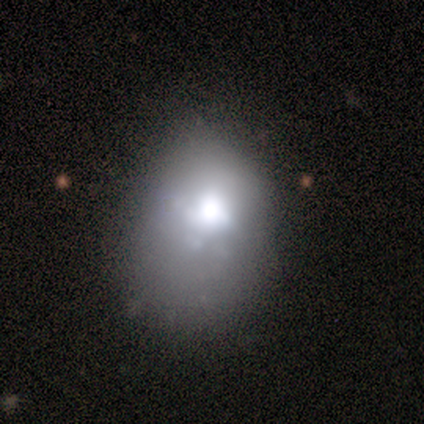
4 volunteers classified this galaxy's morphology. type=smooth (75%); roundness=in between (100%); merging=minor disturbance (75%).